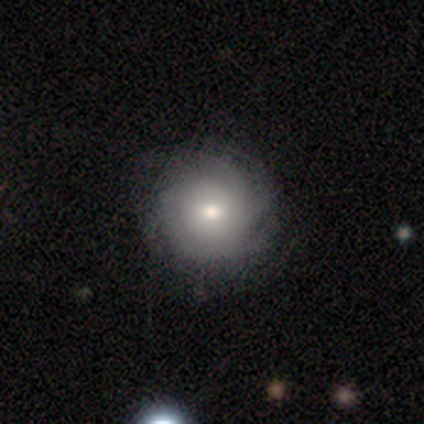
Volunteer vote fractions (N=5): This appears to be a smooth galaxy with no disk features (60%) that is round (67%). Merging: none (100%).